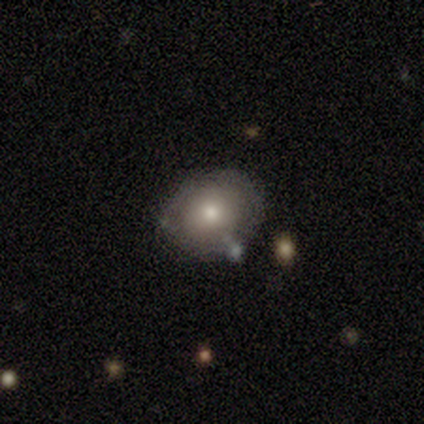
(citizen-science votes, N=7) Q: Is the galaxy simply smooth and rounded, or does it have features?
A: featured or disk — 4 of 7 (57%).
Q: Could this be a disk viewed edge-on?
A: no — 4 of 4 (100%).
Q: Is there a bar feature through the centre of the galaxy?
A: no — 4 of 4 (100%).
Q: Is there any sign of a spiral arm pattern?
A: no — 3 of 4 (75%).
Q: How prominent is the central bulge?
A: moderate — 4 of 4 (100%).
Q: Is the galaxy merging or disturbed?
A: none — 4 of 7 (57%).